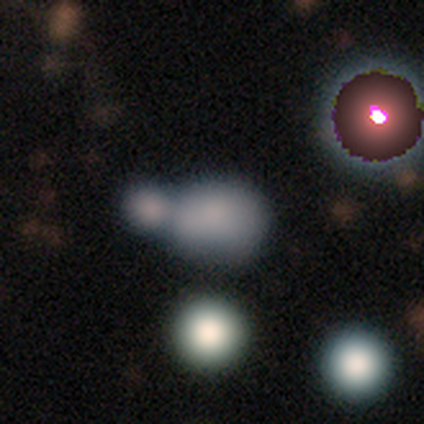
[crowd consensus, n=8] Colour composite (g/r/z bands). It shows a featured or disk galaxy (50%) with no bar (75%), no spiral arms (75%) and a moderate central bulge (75%). Merging: merger (57%).